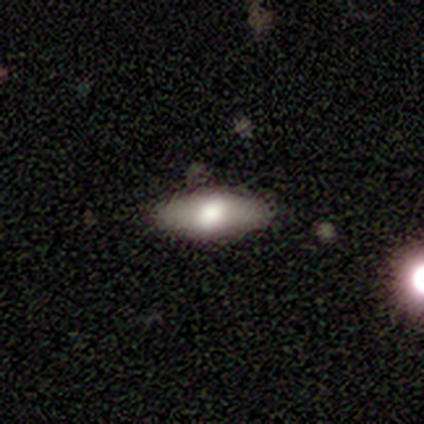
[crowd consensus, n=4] Smooth or featured?
  - smooth: 75% *
  - featured or disk: 25%
  - star or artifact: 0%
How rounded?
  - cigar-shaped: 67% *
  - in between: 33%
  - round: 0%
Merging?
  - none: 75% *
  - major disturbance: 25%
  - minor disturbance: 0%
  - merger: 0%